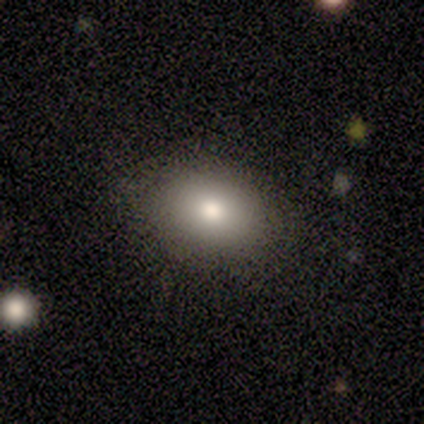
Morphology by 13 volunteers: A smooth galaxy with no disk features (85%) that is in between round and cigar-shaped (73%). Merging: none (92%).